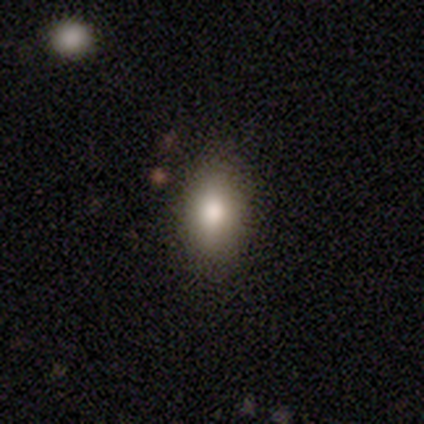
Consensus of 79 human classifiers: This is clearly a smooth galaxy (96%). How rounded: clearly in between (92%). Merging: marginally none (43%).